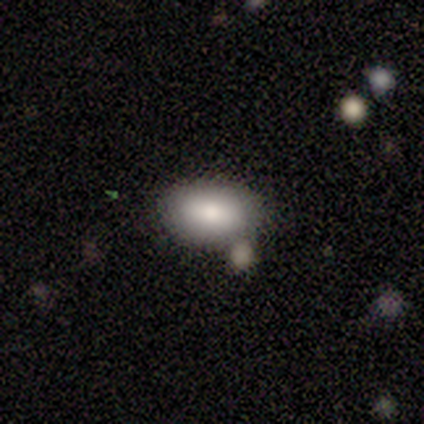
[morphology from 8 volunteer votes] type=smooth (100%); roundness=in between (88%); merging=none (62%).